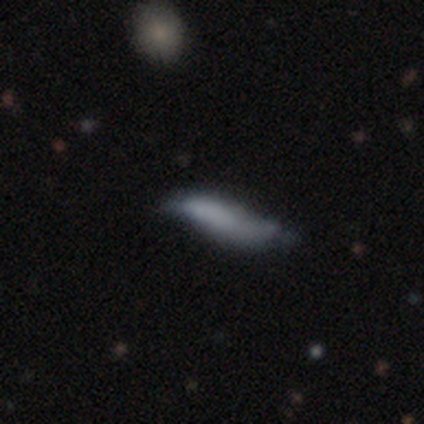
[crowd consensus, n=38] A smooth galaxy with no disk features (63%) that is cigar-shaped (92%). Merging: minor disturbance (42%).